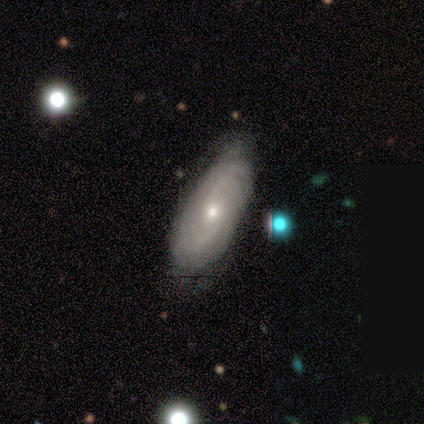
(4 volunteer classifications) Smooth or featured: featured or disk — 75% (smooth — 25%)
Edge-on disk: no — 100%
Bar: weak — 67% (no — 33%)
Spiral arms: yes — 100%
Spiral winding: tight — 100%
Spiral arm count: can't tell — 67% (2 — 33%)
Bulge size: small — 100%
Merging: none — 100%